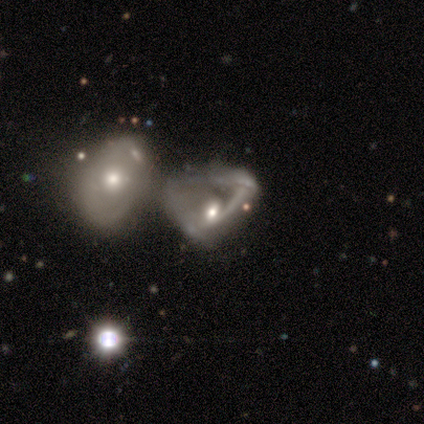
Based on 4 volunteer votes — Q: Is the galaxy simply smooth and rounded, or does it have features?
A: featured or disk — 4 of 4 (100%).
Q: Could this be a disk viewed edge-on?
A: no — 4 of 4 (100%).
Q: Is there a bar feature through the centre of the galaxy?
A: no — 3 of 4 (75%).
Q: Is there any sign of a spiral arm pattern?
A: yes — 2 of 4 (50%, tied with no).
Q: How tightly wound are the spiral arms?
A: medium — 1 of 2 (50%, tied with loose).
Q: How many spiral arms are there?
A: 2 — 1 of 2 (50%, tied with can't tell).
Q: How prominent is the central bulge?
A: moderate — 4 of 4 (100%).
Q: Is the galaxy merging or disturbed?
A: merger — 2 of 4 (50%).